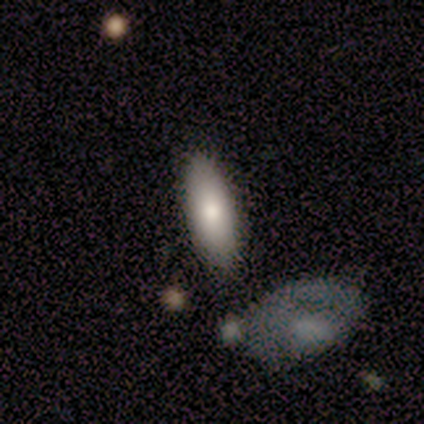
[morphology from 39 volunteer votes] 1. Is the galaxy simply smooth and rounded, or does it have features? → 77% smooth, 15% featured or disk, 8% star or artifact.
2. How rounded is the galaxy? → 63% in between, 37% cigar-shaped, 0% round.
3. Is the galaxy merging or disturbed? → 78% none, 11% merger, 8% major disturbance, 3% minor disturbance.